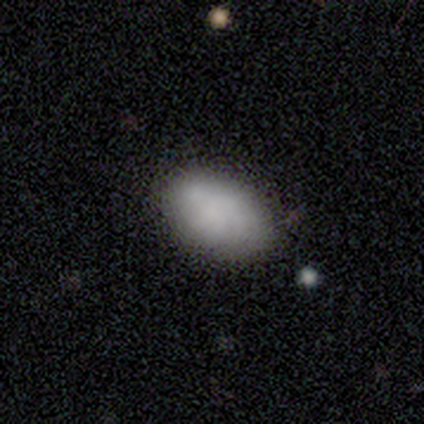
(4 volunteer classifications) Volunteers were most divided on "how rounded": in between: 75%, cigar-shaped: 25%, round: 0%. More confident: smooth or featured — smooth (100%); merging — none (100%).